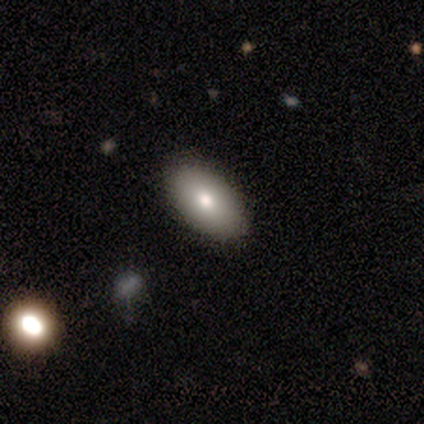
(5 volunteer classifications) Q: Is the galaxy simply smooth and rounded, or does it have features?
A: smooth — 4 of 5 (80%).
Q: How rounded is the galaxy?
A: in between — 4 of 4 (100%).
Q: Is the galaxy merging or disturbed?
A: none — 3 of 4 (75%).